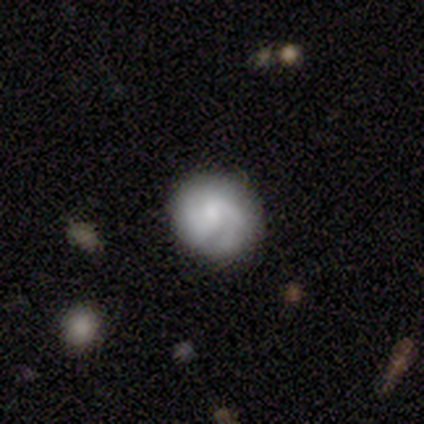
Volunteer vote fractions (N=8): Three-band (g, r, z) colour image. It shows a smooth galaxy with no disk features (62%) that is round (80%). Merging: minor disturbance (62%).